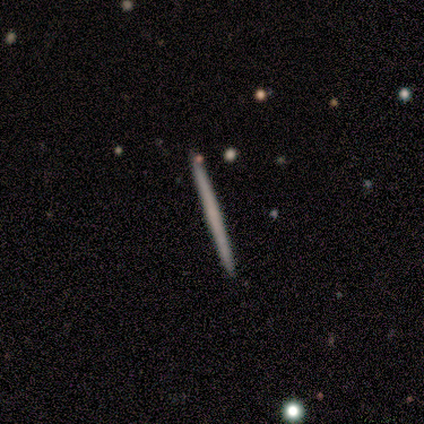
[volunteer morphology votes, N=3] Smooth or featured? 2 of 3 (67%) said featured or disk. Edge-on disk? 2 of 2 (100%) said yes. Edge-on bulge? 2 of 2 (100%) said none. Merging? 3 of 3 (100%) said none.